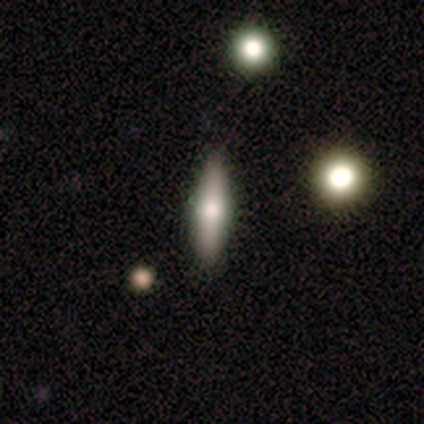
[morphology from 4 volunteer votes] This is possibly a smooth galaxy (50%, tied with featured or disk). How rounded: clearly in between (100%). Merging: likely none (75%).